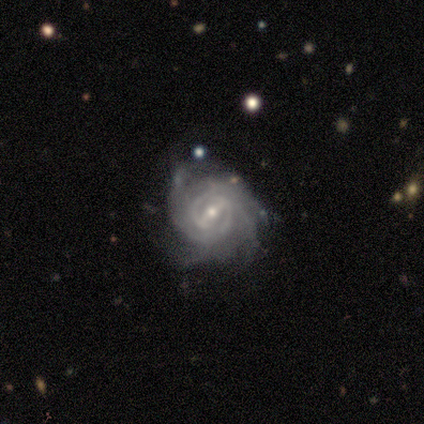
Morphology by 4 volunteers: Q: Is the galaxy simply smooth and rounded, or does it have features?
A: featured or disk — 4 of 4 (100%).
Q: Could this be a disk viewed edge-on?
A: no — 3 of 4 (75%).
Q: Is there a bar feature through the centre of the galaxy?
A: strong — 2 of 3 (67%).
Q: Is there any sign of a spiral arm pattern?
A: yes — 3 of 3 (100%).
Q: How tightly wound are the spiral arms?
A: medium — 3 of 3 (100%).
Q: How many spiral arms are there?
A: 4 — 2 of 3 (67%).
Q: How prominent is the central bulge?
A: moderate — 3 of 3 (100%).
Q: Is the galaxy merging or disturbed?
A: none — 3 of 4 (75%).